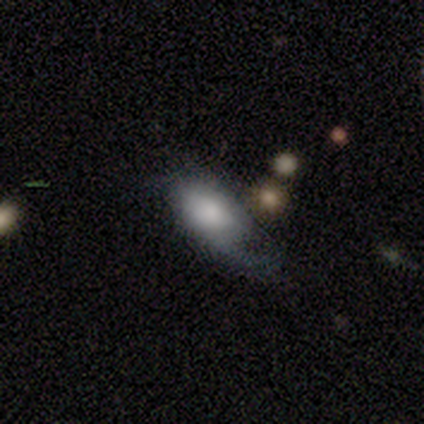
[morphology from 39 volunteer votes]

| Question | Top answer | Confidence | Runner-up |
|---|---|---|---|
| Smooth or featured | smooth | 54% | featured or disk (33%) |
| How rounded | in between | 95% | round (5%) |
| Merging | major disturbance | 56% | none (24%) |